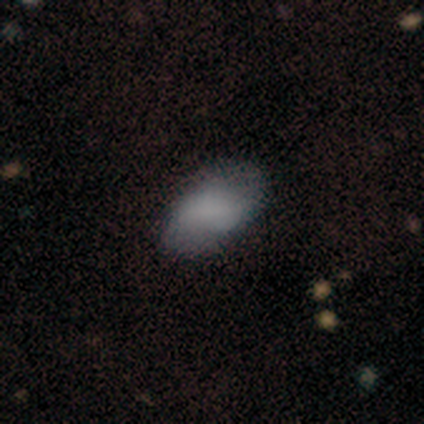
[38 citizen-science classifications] A smooth galaxy with no disk features (82%) that is in between round and cigar-shaped (100%). Merging: none (61%).